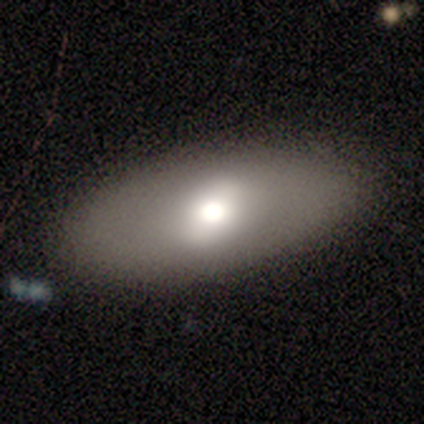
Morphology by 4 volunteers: smooth 50% (tied), featured or disk 50% (tied), star or artifact 0%. Down the decision tree: how rounded — in between (100%); merging — none (75%).